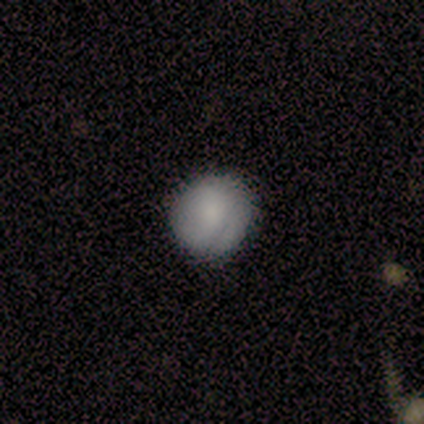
A smooth galaxy with no disk features (100%) that is round (60%).

Vote fractions:
- Smooth or featured? smooth: 100% / featured or disk: 0% / star or artifact: 0%
- How rounded? round: 60% / in between: 40% / cigar-shaped: 0%
- Merging? none: 60% / minor disturbance: 20% / major disturbance: 20% / merger: 0%